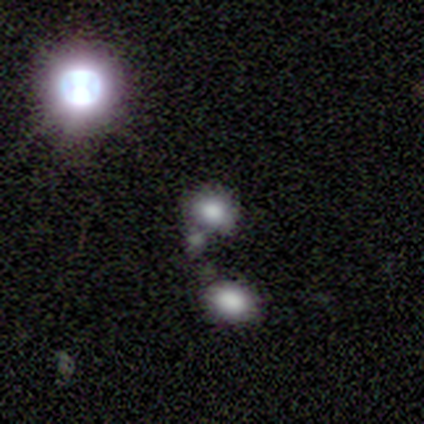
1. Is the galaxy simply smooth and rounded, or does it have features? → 57% smooth, 43% star or artifact, 0% featured or disk.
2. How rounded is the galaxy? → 50% round (tied), 50% in between (tied), 0% cigar-shaped.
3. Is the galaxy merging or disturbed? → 75% none, 25% merger, 0% minor disturbance, 0% major disturbance.